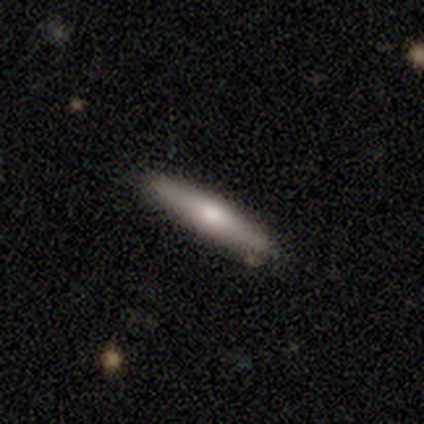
Smooth or featured: smooth — 60% (featured or disk — 40%)
How rounded: cigar-shaped — 100%
Merging: none — 80% (minor disturbance — 20%)